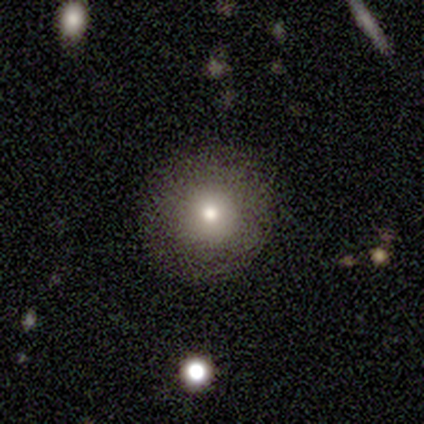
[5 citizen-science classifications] Smooth or featured? 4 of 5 (80%) said smooth. How rounded? 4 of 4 (100%) said round. Merging? 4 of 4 (100%) said none.